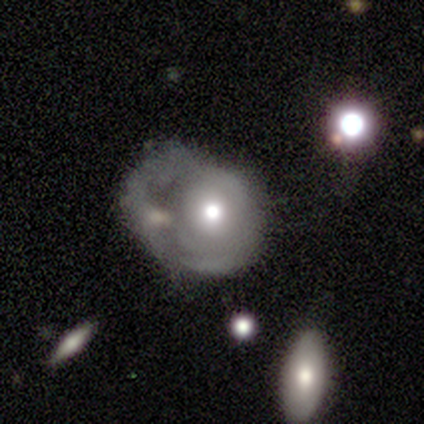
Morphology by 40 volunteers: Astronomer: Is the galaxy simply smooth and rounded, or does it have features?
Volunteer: featured or disk — 70%.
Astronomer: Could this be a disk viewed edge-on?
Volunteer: no — 93%.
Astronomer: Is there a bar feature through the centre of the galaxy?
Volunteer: no — 88%.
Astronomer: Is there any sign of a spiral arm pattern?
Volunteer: no — 54% (runner-up: yes, 46%).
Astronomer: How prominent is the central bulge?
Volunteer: moderate — 73%.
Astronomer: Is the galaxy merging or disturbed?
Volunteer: major disturbance — 68%.